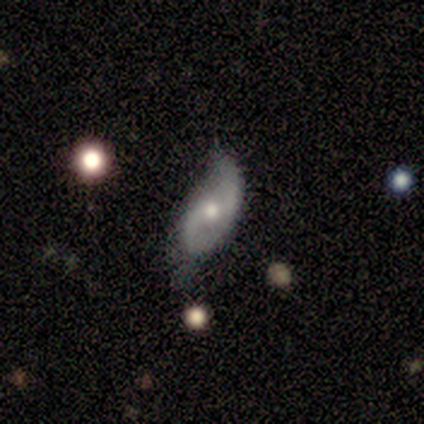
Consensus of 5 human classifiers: A featured or disk galaxy (80%) with no bar (100%), 2 (100%) loose (100%) spiral arms (100%) and a moderate central bulge (67%). Merging: none (40%, tied with major disturbance).